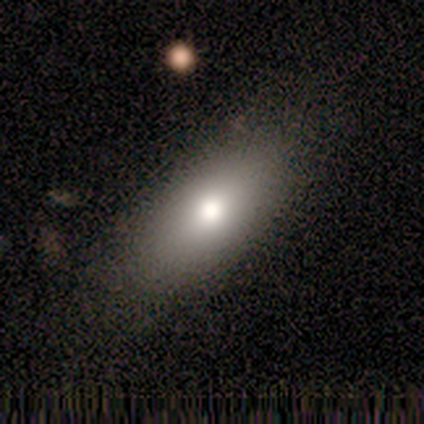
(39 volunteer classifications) This appears to be a smooth galaxy with no disk features (87%) that is in between round and cigar-shaped (94%). Merging: none (75%).